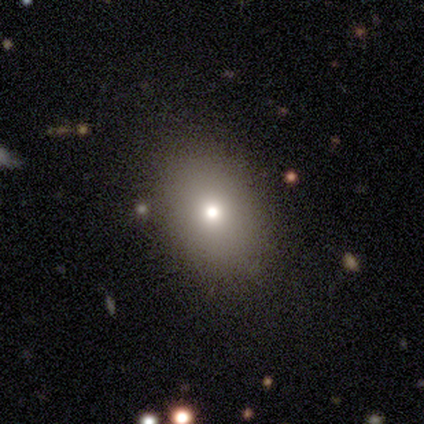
smooth_or_featured: smooth (p=0.80) [alt: star or artifact p=0.20]
how_rounded: round (p=0.50) [tied with: in between p=0.50]
merging: none (p=0.75) [alt: merger p=0.25]